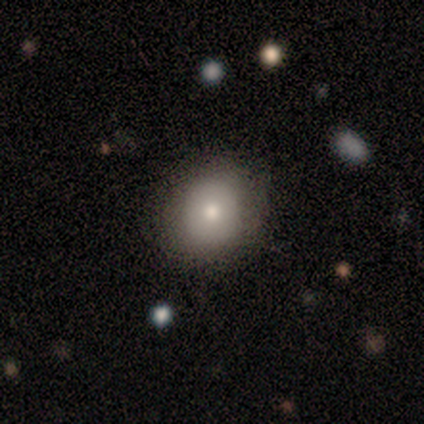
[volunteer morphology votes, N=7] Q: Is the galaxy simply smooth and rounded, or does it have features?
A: smooth — 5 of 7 (71%).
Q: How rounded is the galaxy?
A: round — 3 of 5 (60%).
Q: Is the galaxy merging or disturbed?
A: none — 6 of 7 (86%).